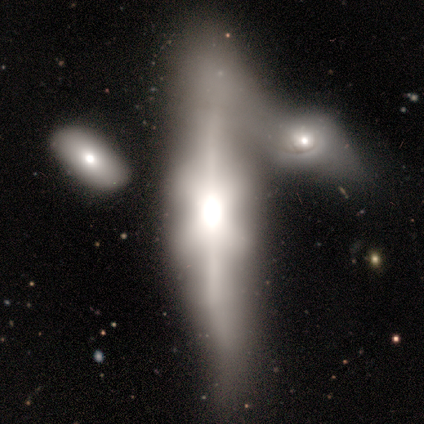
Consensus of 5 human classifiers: Smooth or featured: featured or disk — 80% (smooth — 20%)
Edge-on disk: yes — 50% (tied with no — 50%)
Edge-on bulge: rounded — 100%
Merging: major disturbance — 40% (tied with merger — 40%)